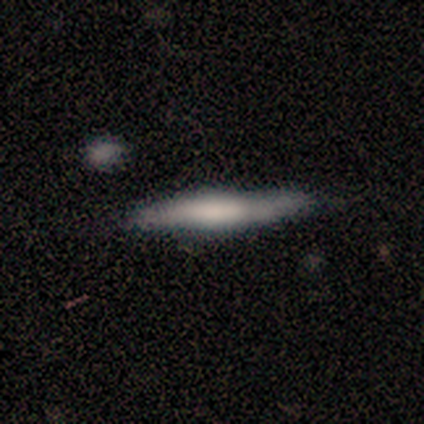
Q: Smooth or featured?
A: smooth (43%); tied with: featured or disk (43%)
Q: How rounded?
A: cigar-shaped (100%)
Q: Merging?
A: none (50%); tied with: minor disturbance (50%)